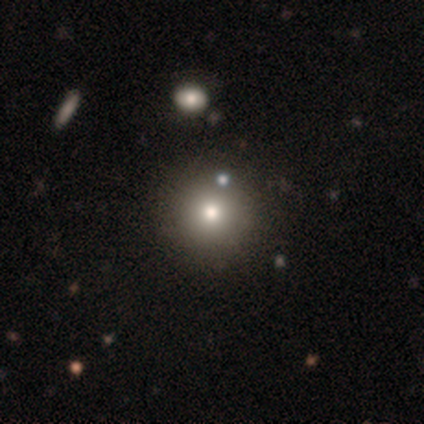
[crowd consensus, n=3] This appears to be a smooth galaxy with no disk features (67%) that is round (100%). Merging: none (100%).